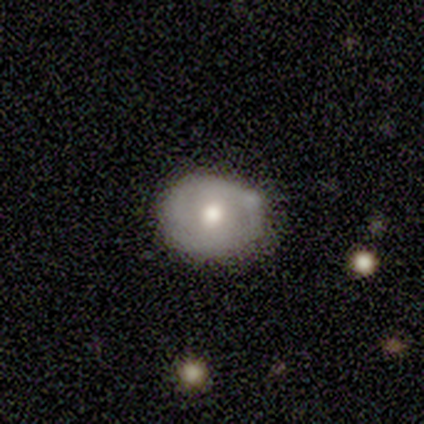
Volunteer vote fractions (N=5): Smooth or featured? featured or disk (80%)
Edge-on disk? no (100%)
Bar? no (100%)
Spiral arms? no (100%)
Bulge size? moderate (100%)
Merging? none (60%)